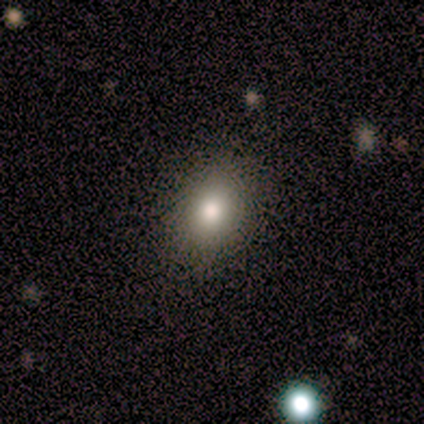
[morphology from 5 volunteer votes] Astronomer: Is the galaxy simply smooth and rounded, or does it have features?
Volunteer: smooth — 100%.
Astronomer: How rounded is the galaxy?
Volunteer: in between — 60% (runner-up: round, 40%).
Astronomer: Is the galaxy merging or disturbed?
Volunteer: none — 100%.